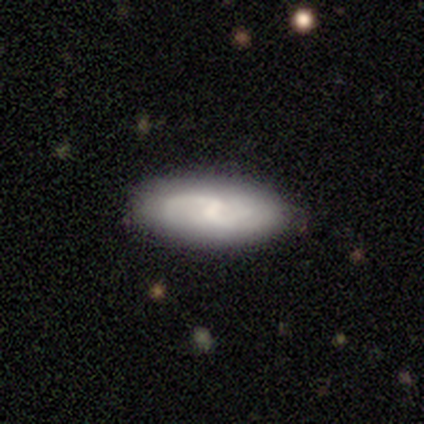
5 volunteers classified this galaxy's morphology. featured or disk 80%, smooth 20%, star or artifact 0%. Down the decision tree: edge-on disk — no (75%); bar — strong (33%, tied with weak and no); spiral arms — yes (100%); spiral arm count — 2 (100%); spiral winding — loose (67%); bulge size — small (67%); merging — none (80%).